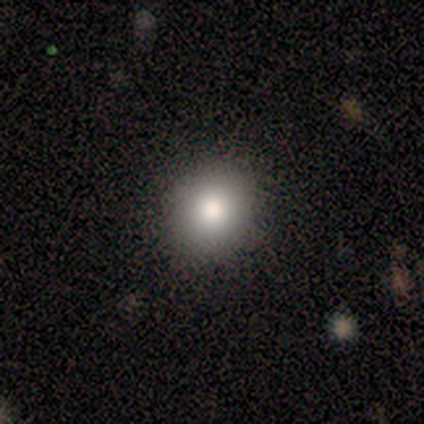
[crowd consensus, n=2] Q: Smooth or featured?
A: smooth (100%)
Q: How rounded?
A: round (100%)
Q: Merging?
A: none (100%)